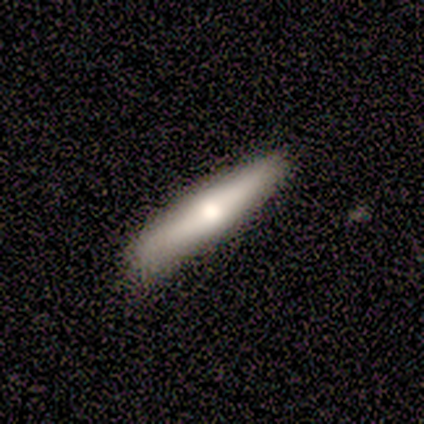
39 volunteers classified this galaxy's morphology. This is likely a smooth galaxy (62%). How rounded: clearly cigar-shaped (83%). Merging: likely none (68%).